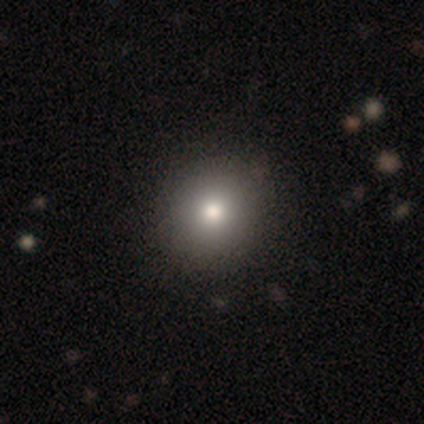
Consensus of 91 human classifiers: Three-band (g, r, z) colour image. It shows a smooth galaxy with no disk features (73%) that is round (83%). Merging: none (90%).